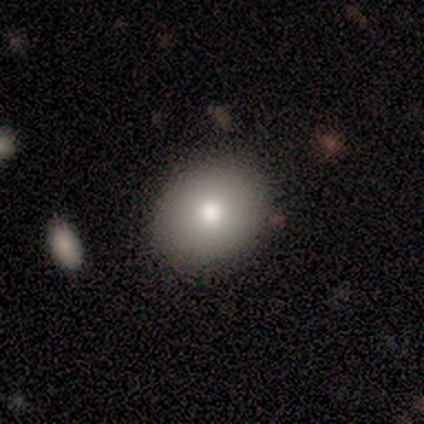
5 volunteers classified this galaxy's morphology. A smooth galaxy with no disk features (40%, tied with featured or disk) that is round (50%, tied with in between). Merging: none (75%).